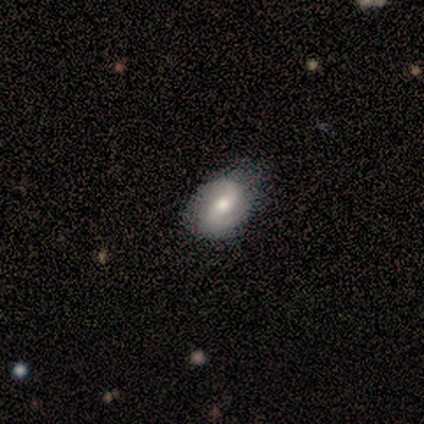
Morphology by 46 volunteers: Smooth or featured?
  - featured or disk: 57% *
  - smooth: 37%
  - star or artifact: 7%
Edge-on disk?
  - no: 100% *
  - yes: 0%
Bar?
  - no: 54% *
  - strong: 27%
  - weak: 19%
Spiral arms?
  - yes: 85% *
  - no: 15%
Spiral winding?
  - medium: 50% *
  - loose: 41%
  - tight: 9%
Spiral arm count?
  - 2: 100% *
  - 1: 0%
  - 3: 0%
  - 4: 0%
  - more than 4: 0%
  - can't tell: 0%
Bulge size?
  - moderate: 58% *
  - small: 23%
  - large: 19%
  - dominant: 0%
  - none: 0%
Merging?
  - none: 53% *
  - minor disturbance: 42%
  - major disturbance: 2%
  - merger: 2%